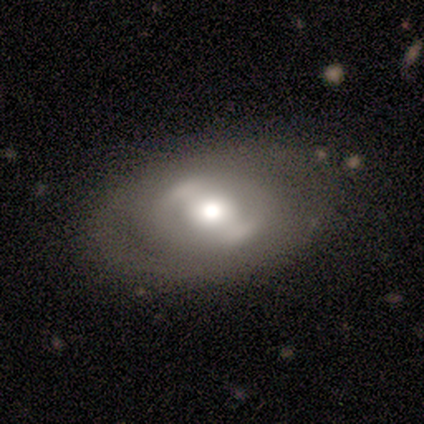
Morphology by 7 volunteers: Smooth or featured? 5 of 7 (71%) said featured or disk. Edge-on disk? 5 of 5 (100%) said no. Bar? 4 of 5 (80%) said no. Spiral arms? 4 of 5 (80%) said no. Bulge size? 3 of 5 (60%) said moderate. Merging? 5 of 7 (71%) said none.